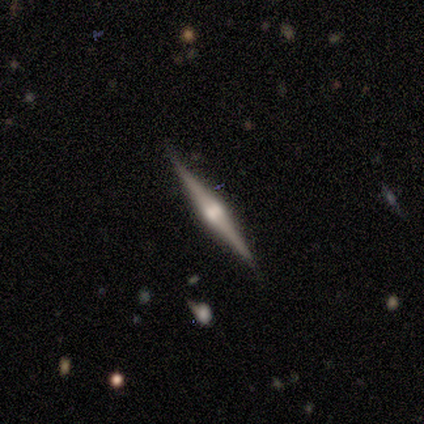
Q: Smooth or featured?
A: featured or disk (100%)
Q: Edge-on disk?
A: yes (100%)
Q: Edge-on bulge?
A: rounded (100%)
Q: Merging?
A: none (100%)